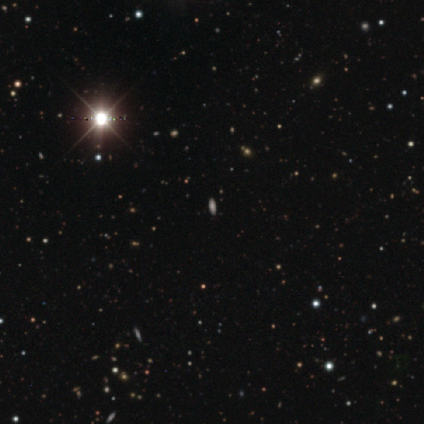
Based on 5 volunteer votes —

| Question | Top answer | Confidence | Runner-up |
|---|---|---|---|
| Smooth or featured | star or artifact | 60% | smooth (40%) |